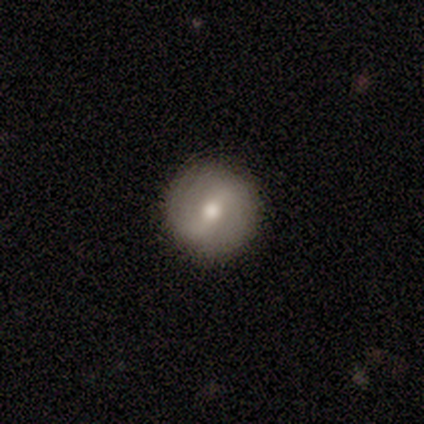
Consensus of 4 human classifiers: Volunteers were most divided on "smooth or featured": smooth: 50%, featured or disk: 25%, star or artifact: 25%. More confident: how rounded — round (100%); merging — none (100%).